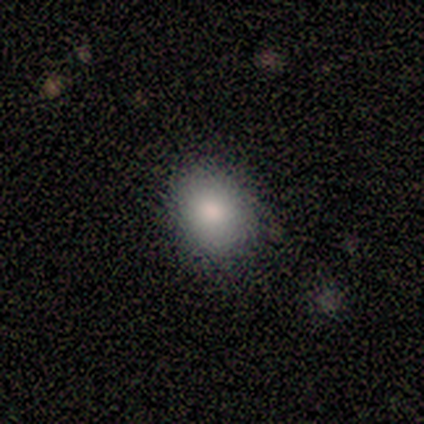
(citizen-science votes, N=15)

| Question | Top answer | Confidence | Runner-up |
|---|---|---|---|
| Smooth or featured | smooth | 87% | featured or disk (13%) |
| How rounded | in between | 69% | round (31%) |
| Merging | none | 93% | minor disturbance (7%) |